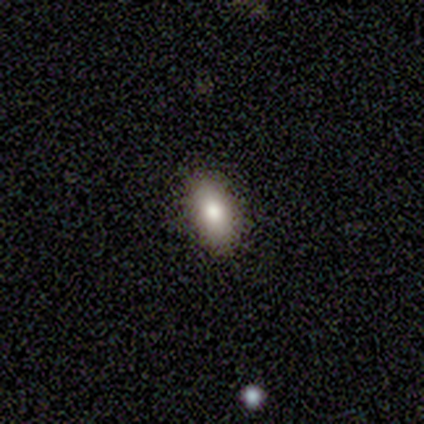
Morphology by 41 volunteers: Smooth or featured? 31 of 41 (76%) said smooth. How rounded? 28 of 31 (90%) said in between. Merging? 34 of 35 (97%) said none.